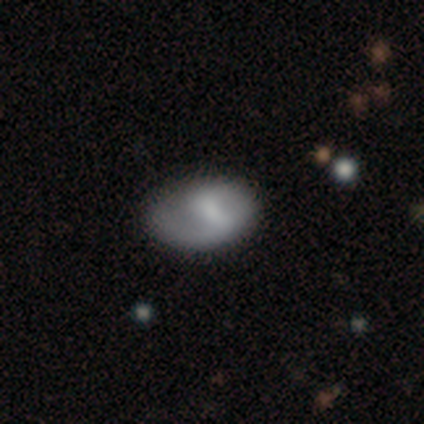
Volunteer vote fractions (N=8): Overall: featured or disk (62%; smooth 25%). Edge-on disk: no (100%). Bar: weak (80%). Spiral arms: yes (80%). Spiral arm count: 1 (50%; 2 25%). Spiral winding: medium (75%). Bulge size: none (60%; small 40%). Merging: none (43%, tied with minor disturbance).